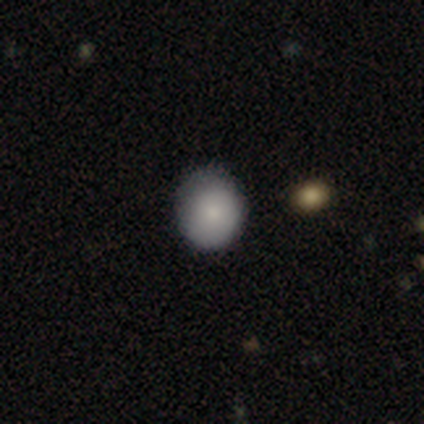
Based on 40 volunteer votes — smooth_or_featured: smooth (p=0.82) [alt: featured or disk p=0.15]
how_rounded: round (p=0.88) [alt: in between p=0.12]
merging: none (p=0.69) [alt: minor disturbance p=0.23]